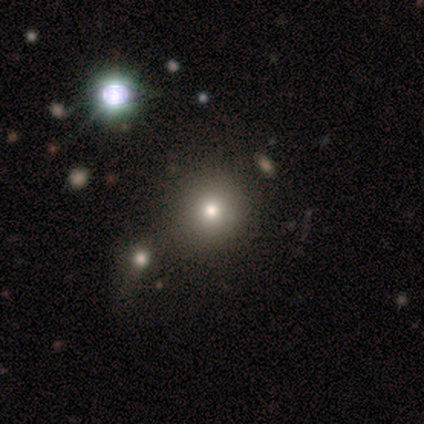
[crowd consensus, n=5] A smooth galaxy with no disk features (100%) that is round (80%). Merging: merger (60%).